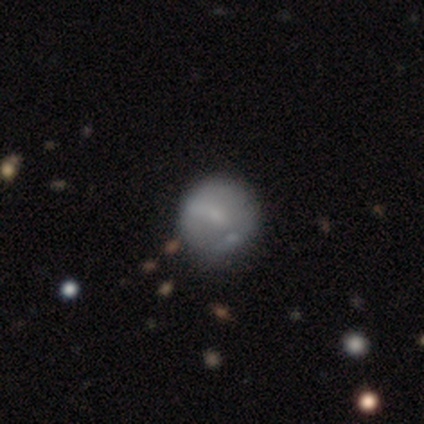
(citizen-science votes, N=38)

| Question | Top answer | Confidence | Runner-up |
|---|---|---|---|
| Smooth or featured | smooth | 45% | tied: featured or disk (45%) |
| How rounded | round | 94% | in between (6%) |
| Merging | none | 38% | minor disturbance (18%) |